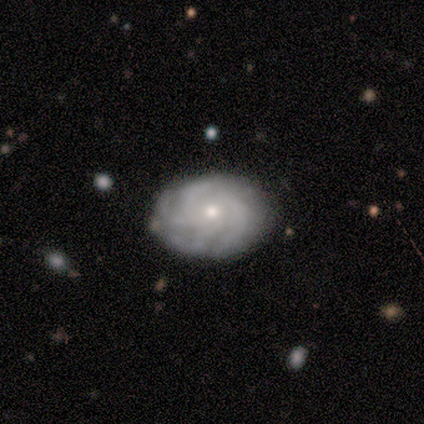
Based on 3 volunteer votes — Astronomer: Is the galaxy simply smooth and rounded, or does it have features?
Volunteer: featured or disk — 100%.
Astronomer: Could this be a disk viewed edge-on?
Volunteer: no — 100%.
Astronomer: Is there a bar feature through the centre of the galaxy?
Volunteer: no — 100%.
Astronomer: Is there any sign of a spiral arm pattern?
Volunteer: yes — 100%.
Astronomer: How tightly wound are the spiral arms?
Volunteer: tight — 67%.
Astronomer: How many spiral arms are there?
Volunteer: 4 — 67%.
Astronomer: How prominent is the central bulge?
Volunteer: small — 67%.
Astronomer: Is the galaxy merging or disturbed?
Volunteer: none — 67%.